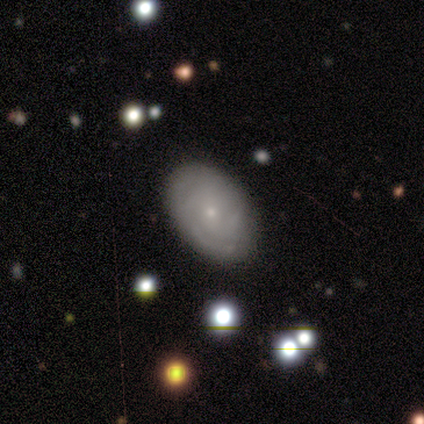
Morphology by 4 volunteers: Smooth or featured?
  - featured or disk: 75% *
  - star or artifact: 25%
  - smooth: 0%
Edge-on disk?
  - no: 67% *
  - yes: 33%
Bar?
  - no: 100% *
  - strong: 0%
  - weak: 0%
Spiral arms?
  - yes: 50% * (tied)
  - no: 50% * (tied)
Spiral winding?
  - tight: 100% *
  - medium: 0%
  - loose: 0%
Spiral arm count?
  - 3: 100% *
  - 1: 0%
  - 2: 0%
  - 4: 0%
  - more than 4: 0%
  - can't tell: 0%
Bulge size?
  - small: 100% *
  - dominant: 0%
  - large: 0%
  - moderate: 0%
  - none: 0%
Merging?
  - none: 67% *
  - minor disturbance: 33%
  - major disturbance: 0%
  - merger: 0%